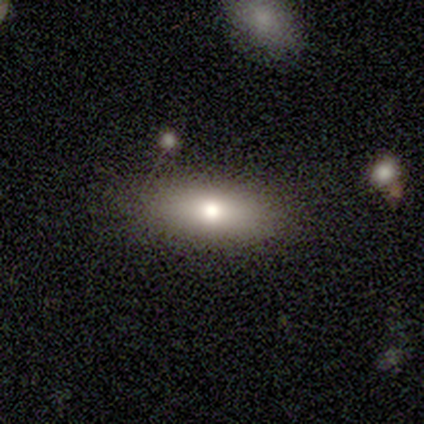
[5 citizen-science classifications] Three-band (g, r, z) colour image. It shows a smooth galaxy with no disk features (80%) that is in between round and cigar-shaped (75%). Merging: none (100%).